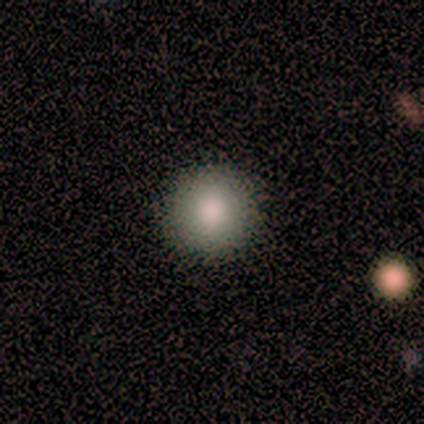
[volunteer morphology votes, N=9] A smooth galaxy with no disk features (89%) that is round (88%).

Vote fractions:
- Smooth or featured? smooth: 89% / star or artifact: 11% / featured or disk: 0%
- How rounded? round: 88% / cigar-shaped: 12% / in between: 0%
- Merging? none: 88% / minor disturbance: 12% / major disturbance: 0% / merger: 0%